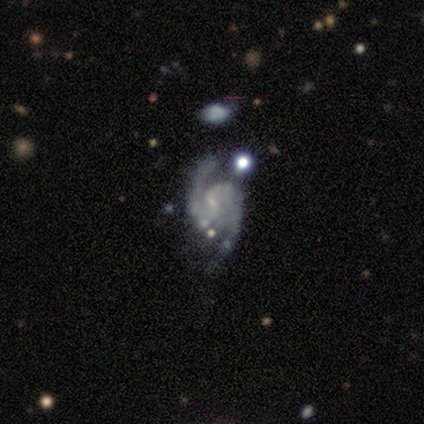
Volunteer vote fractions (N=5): This appears to be a featured or disk galaxy (100%) with a weak bar (80%), 2 (80%) medium (80%) spiral arms (100%) and a small central bulge (100%). Merging: none (60%).